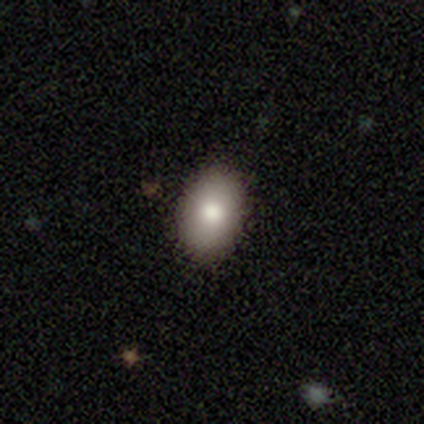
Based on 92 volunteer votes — Smooth or featured? smooth (80%)
How rounded? in between (82%)
Merging? none (91%)